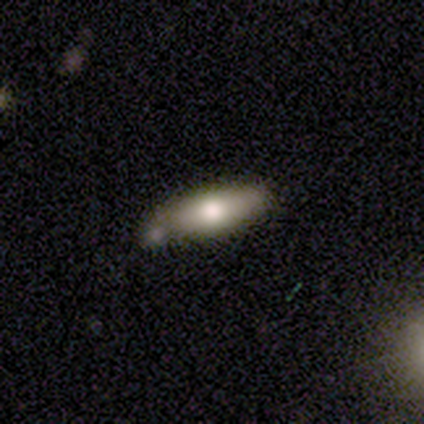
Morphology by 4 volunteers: A smooth galaxy with no disk features (50%) that is in between round and cigar-shaped (50%, tied with cigar-shaped).

Vote fractions:
- Smooth or featured? smooth: 50% / featured or disk: 25% / star or artifact: 25%
- How rounded? in between: 50% (tied) / cigar-shaped: 50% (tied) / round: 0%
- Merging? none: 67% / minor disturbance: 33% / major disturbance: 0% / merger: 0%